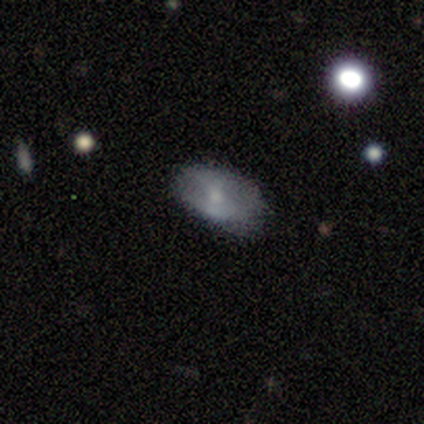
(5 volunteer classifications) Volunteers were most divided on "smooth or featured" (2-way tie): smooth: 40%, featured or disk: 40%, star or artifact: 20%. More confident: how rounded — in between (100%); merging — none (75%).